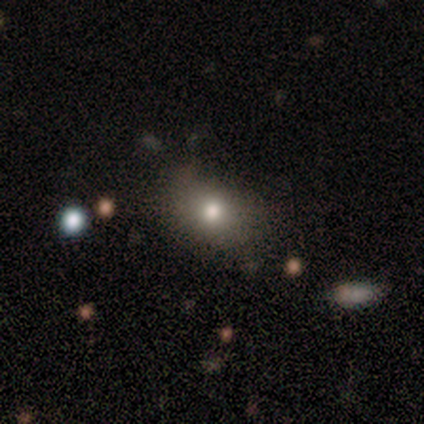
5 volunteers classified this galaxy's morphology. Smooth or featured? smooth (80%)
How rounded? in between (100%)
Merging? none (100%)